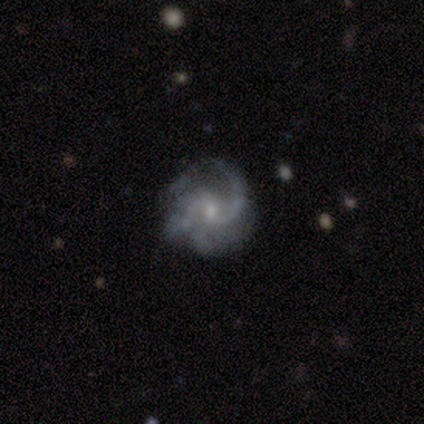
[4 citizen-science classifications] Q: Smooth or featured?
A: featured or disk (100%)
Q: Edge-on disk?
A: no (100%)
Q: Bar?
A: no (75%); runner-up: weak (25%)
Q: Spiral arms?
A: yes (100%)
Q: Spiral winding?
A: medium (100%)
Q: Spiral arm count?
A: 2 (75%); runner-up: 1 (25%)
Q: Bulge size?
A: small (75%); runner-up: moderate (25%)
Q: Merging?
A: none (100%)